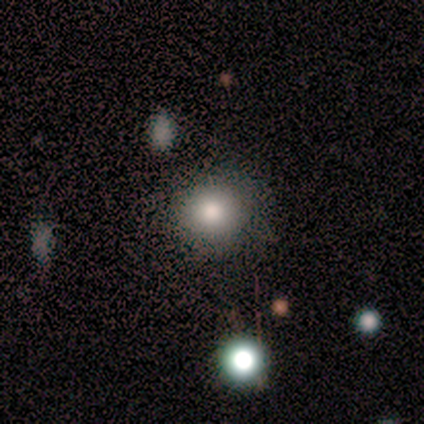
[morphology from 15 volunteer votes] smooth_or_featured: smooth (p=0.80) [alt: star or artifact p=0.13]
how_rounded: round (p=0.83) [alt: in between p=0.17]
merging: none (p=0.85) [alt: major disturbance p=0.08]